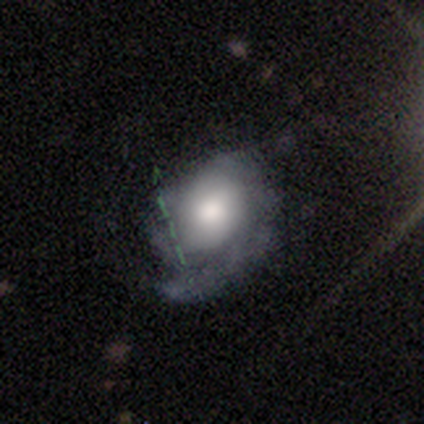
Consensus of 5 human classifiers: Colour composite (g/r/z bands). It shows a smooth galaxy with no disk features (60%) that is round (67%). Merging: none (80%).